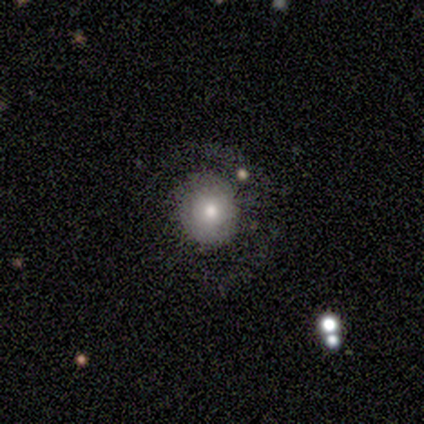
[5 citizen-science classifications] Morphology: type=smooth (60%); roundness=round (67%); merging=none (80%).